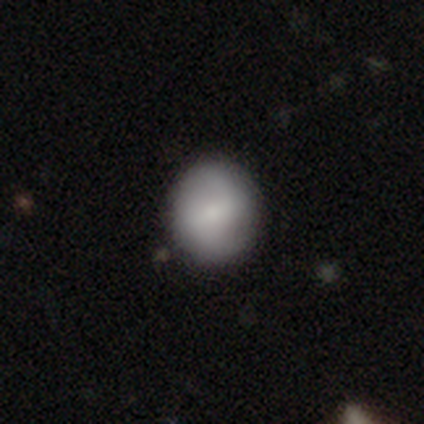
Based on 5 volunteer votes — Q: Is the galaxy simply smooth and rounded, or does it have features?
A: smooth — 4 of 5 (80%).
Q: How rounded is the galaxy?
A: round — 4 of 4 (100%).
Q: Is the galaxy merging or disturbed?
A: none — 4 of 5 (80%).